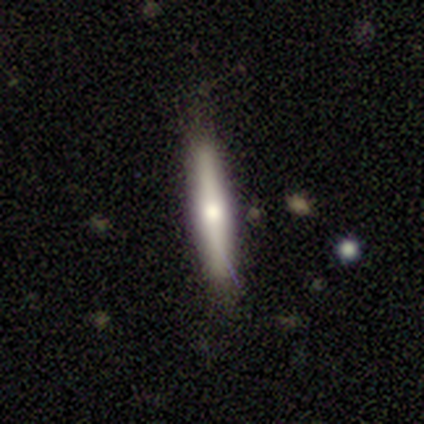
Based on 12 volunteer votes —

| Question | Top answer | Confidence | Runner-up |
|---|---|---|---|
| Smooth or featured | smooth | 58% | featured or disk (42%) |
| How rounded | cigar-shaped | 86% | in between (14%) |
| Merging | none | 92% | major disturbance (8%) |